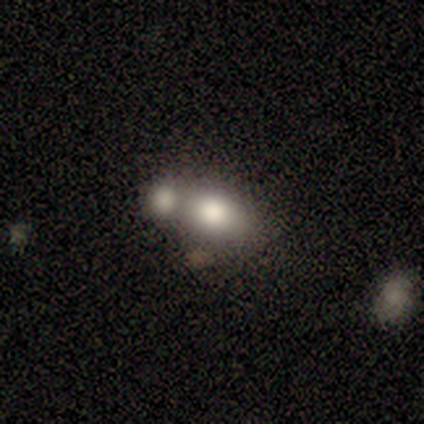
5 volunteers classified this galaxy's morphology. A smooth galaxy with no disk features (60%) that is in between round and cigar-shaped (100%). Merging: merger (80%).